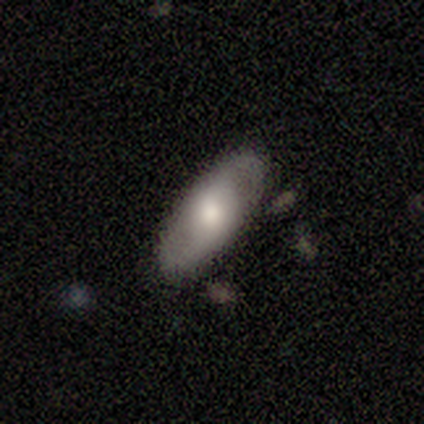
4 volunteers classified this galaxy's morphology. type=featured or disk (100%); edge-on=no (75%); bar=no (67%); spiral arms=no (67%); bulge=large (33%, tied with moderate and small); merging=none (50%, tied with minor disturbance).